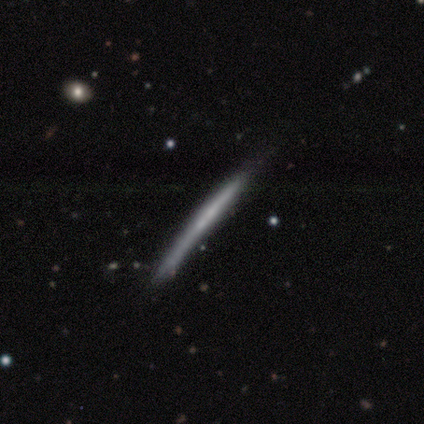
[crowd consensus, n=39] Smooth or featured?
  - featured or disk: 62% *
  - smooth: 33%
  - star or artifact: 5%
Edge-on disk?
  - yes: 96% *
  - no: 4%
Edge-on bulge?
  - none: 91% *
  - boxy: 4%
  - rounded: 4%
Merging?
  - none: 35% *
  - minor disturbance: 19%
  - major disturbance: 14%
  - merger: 0%